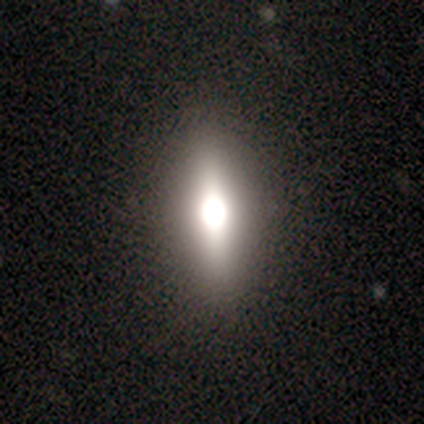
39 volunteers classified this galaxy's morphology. A featured or disk galaxy (49%) viewed edge-on (89%) with a rounded central bulge (82%).

Vote fractions:
- Smooth or featured? featured or disk: 49% / smooth: 44% / star or artifact: 8%
- Edge-on disk? yes: 89% / no: 11%
- Edge-on bulge? rounded: 82% / boxy: 18% / none: 0%
- Merging? none: 86% / minor disturbance: 14% / major disturbance: 0% / merger: 0%